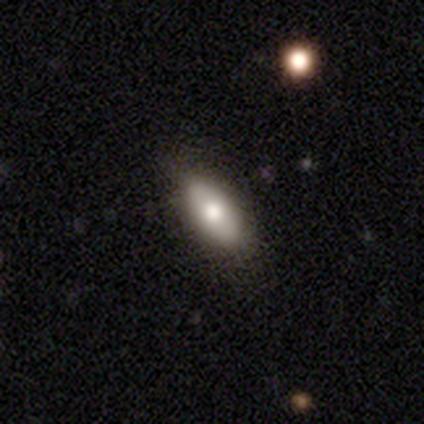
Smooth or featured: smooth — 100%
How rounded: in between — 100%
Merging: none — 50% (tied with minor disturbance — 50%)